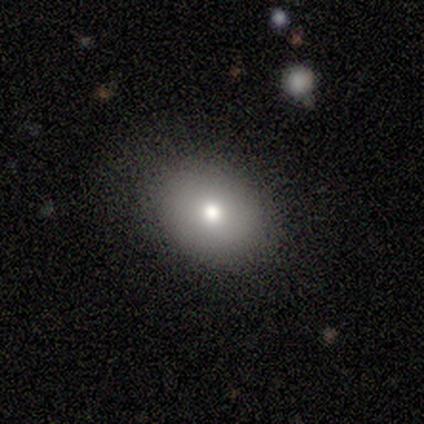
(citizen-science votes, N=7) Smooth or featured? 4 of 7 (57%) said smooth. How rounded? 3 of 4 (75%) said round. Merging? 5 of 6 (83%) said none.